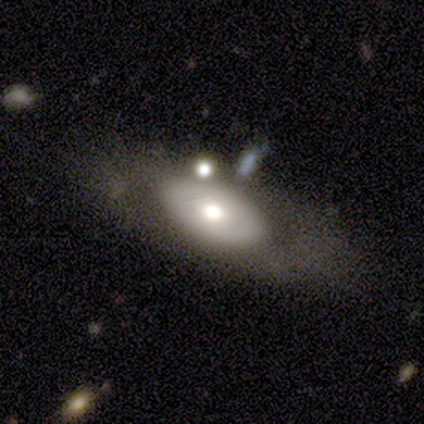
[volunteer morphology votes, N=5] A smooth galaxy with no disk features (100%) that is in between round and cigar-shaped (100%). Merging: none (60%).